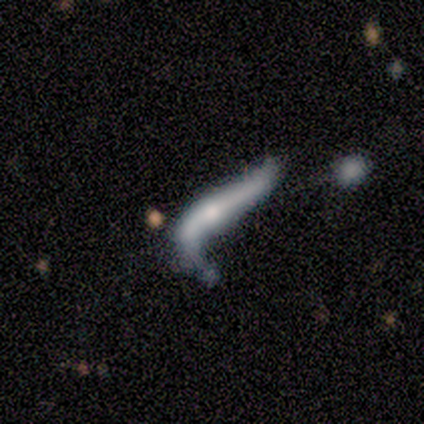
Smooth or featured?
  - smooth: 67% *
  - featured or disk: 33%
  - star or artifact: 0%
How rounded?
  - cigar-shaped: 75% *
  - in between: 25%
  - round: 0%
Merging?
  - major disturbance: 50% *
  - none: 17%
  - minor disturbance: 17%
  - merger: 17%